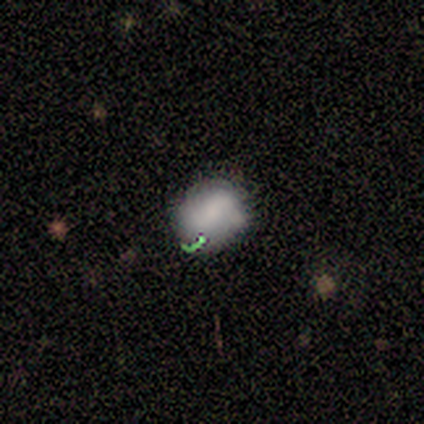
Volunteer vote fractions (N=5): Smooth or featured: smooth — 80% (star or artifact — 20%)
How rounded: round — 50% (tied with in between — 50%)
Merging: none — 50% (minor disturbance — 25%)